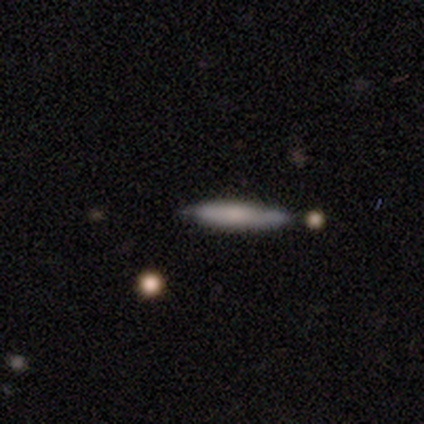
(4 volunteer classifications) Smooth or featured? smooth (75%)
How rounded? cigar-shaped (67%)
Merging? minor disturbance (67%)